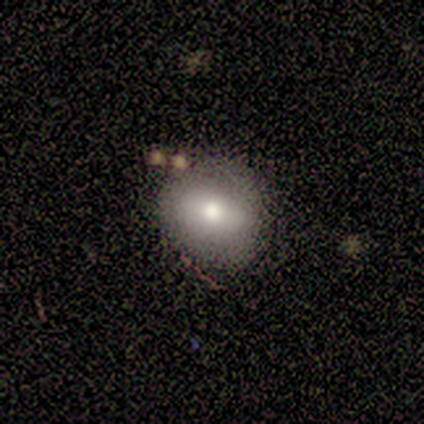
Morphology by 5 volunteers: smooth 60%, featured or disk 40%, star or artifact 0%. Down the decision tree: how rounded — round (67%); merging — none (100%).